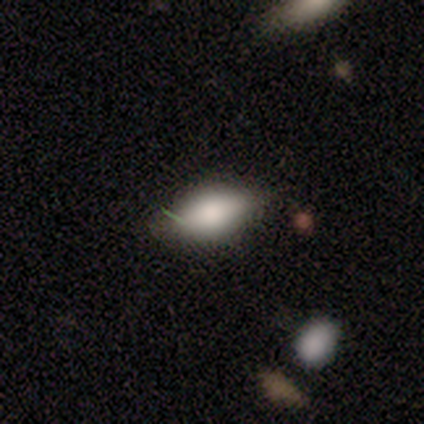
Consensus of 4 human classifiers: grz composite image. It shows a smooth galaxy with no disk features (50%, tied with featured or disk) that is in between round and cigar-shaped (100%). Merging: none (50%).